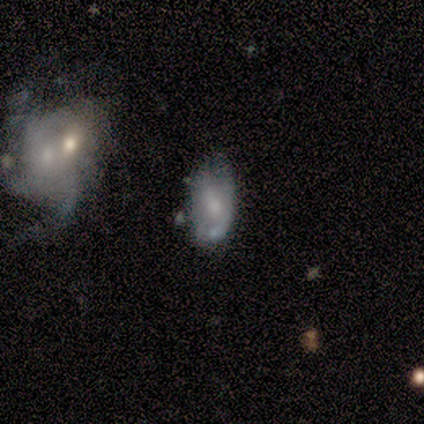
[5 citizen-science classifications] Volunteers were most divided on "merging" (2-way tie): none: 50%, merger: 50%, minor disturbance: 0%, major disturbance: 0%. More confident: how rounded — in between (100%); smooth or featured — smooth (80%).